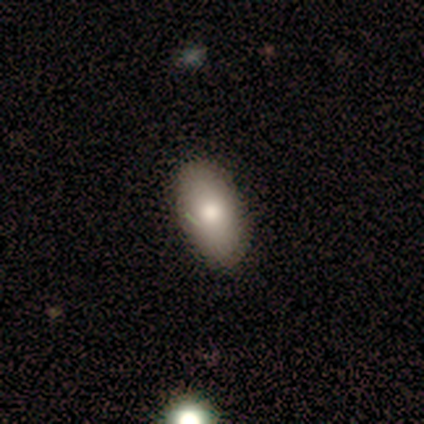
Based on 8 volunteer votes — smooth 88%, star or artifact 12%, featured or disk 0%. Down the decision tree: how rounded — in between (100%); merging — none (86%).